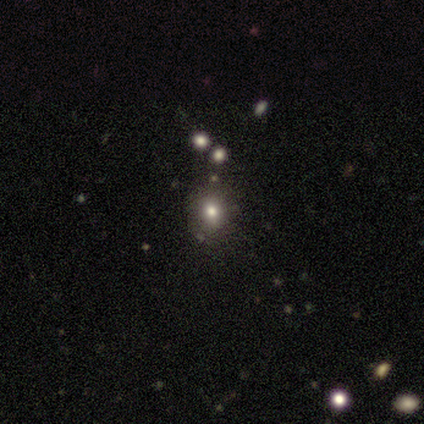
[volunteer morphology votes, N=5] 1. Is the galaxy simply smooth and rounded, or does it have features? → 80% smooth, 20% star or artifact, 0% featured or disk.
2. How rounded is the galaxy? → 100% round, 0% in between, 0% cigar-shaped.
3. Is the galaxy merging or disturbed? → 100% none, 0% minor disturbance, 0% major disturbance, 0% merger.